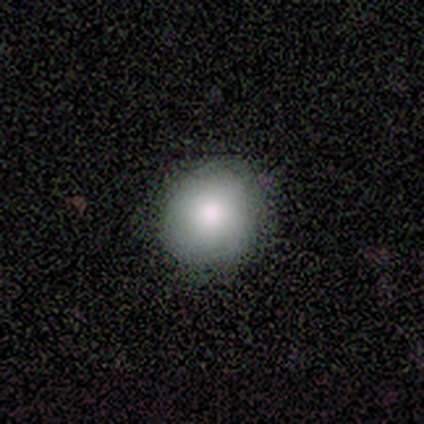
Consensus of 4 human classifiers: Volunteers were most divided on "how rounded": round: 67%, in between: 33%, cigar-shaped: 0%. More confident: merging — none (100%); smooth or featured — smooth (75%).